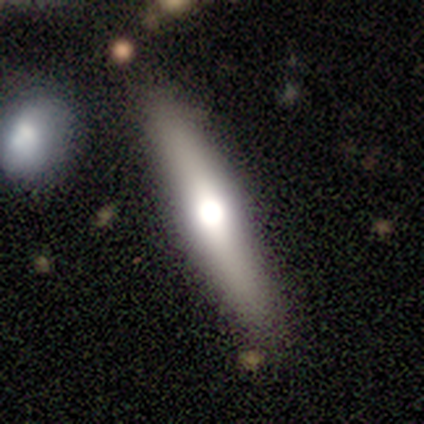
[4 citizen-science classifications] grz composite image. It shows a smooth galaxy with no disk features (75%) that is cigar-shaped (67%). Merging: none (75%).